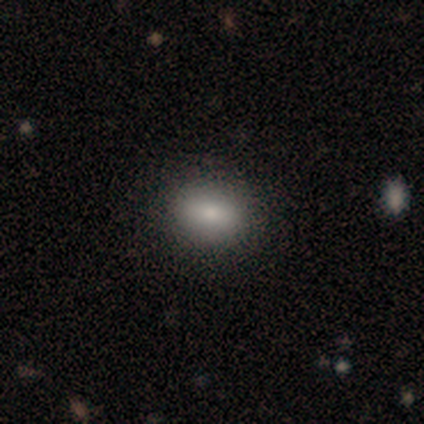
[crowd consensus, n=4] smooth-or-featured: smooth: 100% | featured or disk: 0% | star or artifact: 0%
  how-rounded: in between: 100% | round: 0% | cigar-shaped: 0%
  merging: none: 75% | minor disturbance: 25% | major disturbance: 0% | merger: 0%